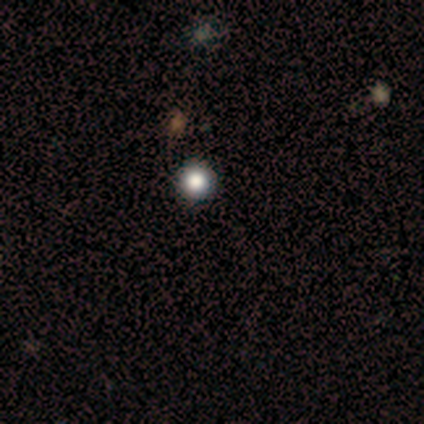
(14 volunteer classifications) This is possibly a smooth galaxy (50%). How rounded: clearly round (100%). Merging: likely none (75%).